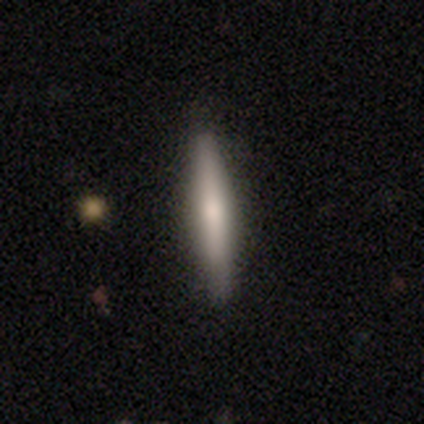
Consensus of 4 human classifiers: Q: Smooth or featured?
A: smooth (75%); runner-up: star or artifact (25%)
Q: How rounded?
A: cigar-shaped (100%)
Q: Merging?
A: none (100%)